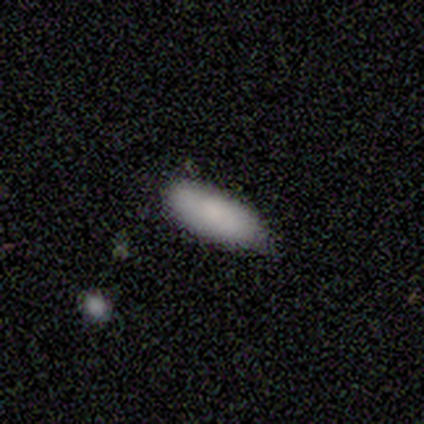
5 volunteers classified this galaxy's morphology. Q: Smooth or featured?
A: smooth (80%); runner-up: star or artifact (20%)
Q: How rounded?
A: in between (100%)
Q: Merging?
A: none (50%); tied with: minor disturbance (50%)